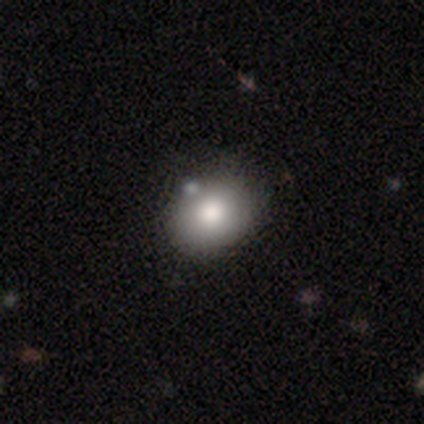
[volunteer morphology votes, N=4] This is likely a smooth galaxy (75%). How rounded: clearly in between (100%). Merging: marginally none (33%, tied with minor disturbance and merger).